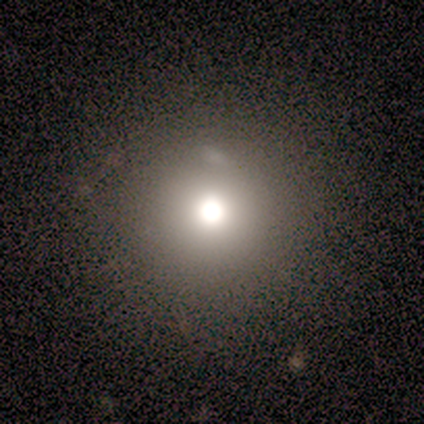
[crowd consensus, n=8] This is likely a smooth galaxy (62%). How rounded: clearly round (100%). Merging: likely none (71%).